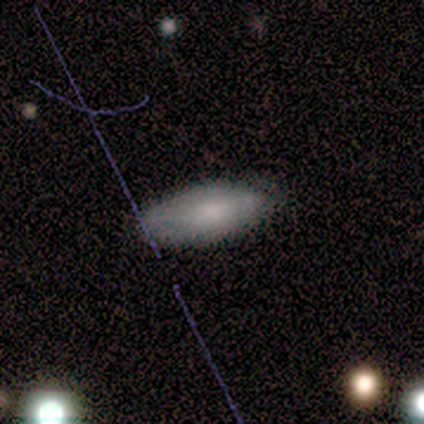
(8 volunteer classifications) This is likely a smooth galaxy (75%). How rounded: clearly in between (83%). Merging: possibly none (50%, tied with minor disturbance).